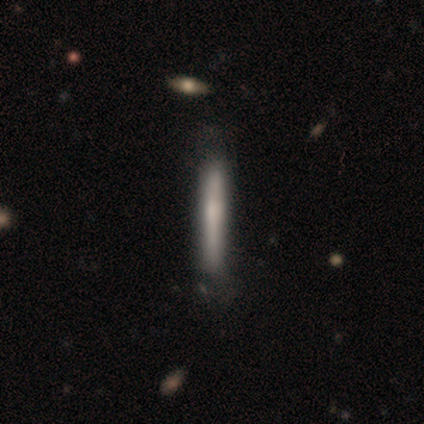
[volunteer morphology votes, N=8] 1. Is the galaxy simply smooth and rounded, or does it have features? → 62% smooth, 38% featured or disk, 0% star or artifact.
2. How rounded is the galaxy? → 100% cigar-shaped, 0% round, 0% in between.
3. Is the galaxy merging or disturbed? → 88% none, 12% minor disturbance, 0% major disturbance, 0% merger.